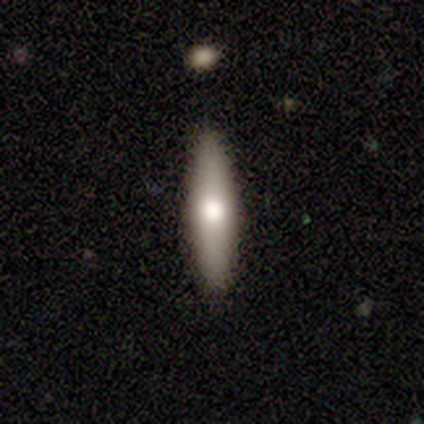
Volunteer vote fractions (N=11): Volunteers were most divided on "smooth or featured": smooth: 55%, featured or disk: 45%, star or artifact: 0%. More confident: how rounded — cigar-shaped (83%); merging — none (82%).